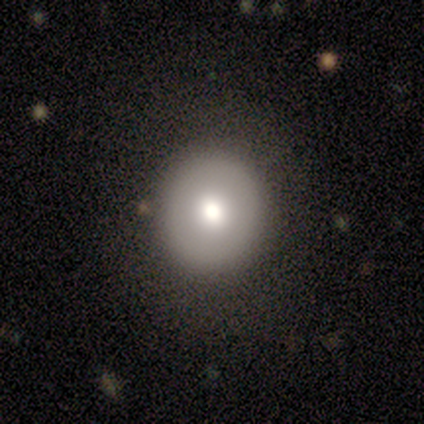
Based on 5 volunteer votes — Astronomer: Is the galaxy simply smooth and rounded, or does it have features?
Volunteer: smooth — 60% (runner-up: featured or disk, 40%).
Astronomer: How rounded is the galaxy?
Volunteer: round — 100%.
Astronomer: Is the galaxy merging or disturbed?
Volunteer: none — 80%.